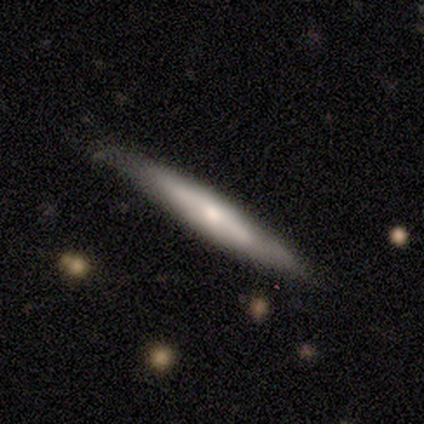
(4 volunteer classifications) This is likely a smooth galaxy (75%). How rounded: clearly cigar-shaped (100%). Merging: likely none (75%).